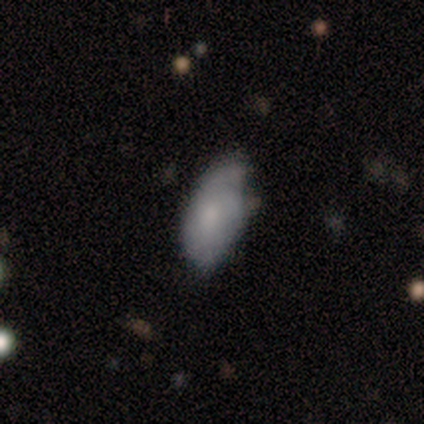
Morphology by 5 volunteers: Q: Smooth or featured?
A: smooth (80%); runner-up: featured or disk (20%)
Q: How rounded?
A: in between (100%)
Q: Merging?
A: minor disturbance (80%); runner-up: none (20%)